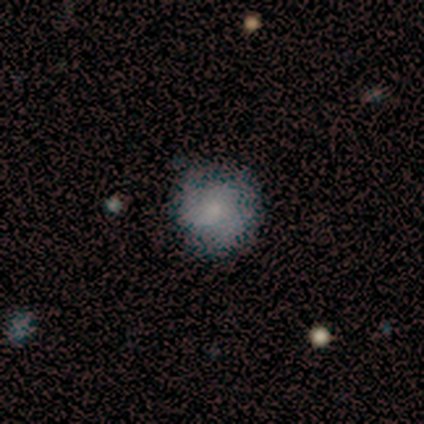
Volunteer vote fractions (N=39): Smooth or featured? smooth (54%)
How rounded? round (90%)
Merging? none (65%)